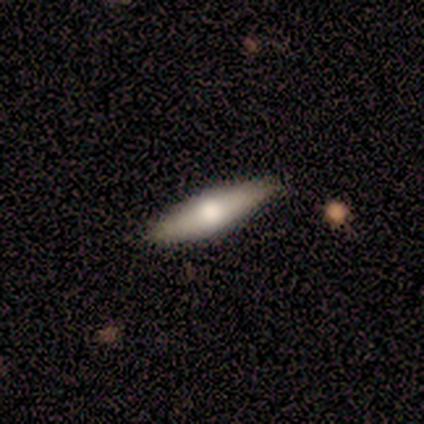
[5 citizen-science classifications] smooth 60%, featured or disk 40%, star or artifact 0%. Down the decision tree: how rounded — cigar-shaped (67%); merging — none (60%).